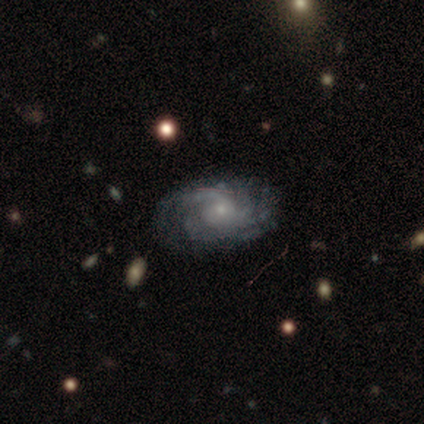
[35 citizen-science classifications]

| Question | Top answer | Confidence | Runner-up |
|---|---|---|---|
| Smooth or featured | featured or disk | 91% | star or artifact (6%) |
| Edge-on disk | no | 100% | — |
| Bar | no | 75% | weak (19%) |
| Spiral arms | yes | 94% | no (6%) |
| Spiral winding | tight | 50% | medium (37%) |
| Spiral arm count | can't tell | 30% | more than 4 (23%) |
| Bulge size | small | 84% | moderate (9%) |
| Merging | none | 73% | minor disturbance (15%) |